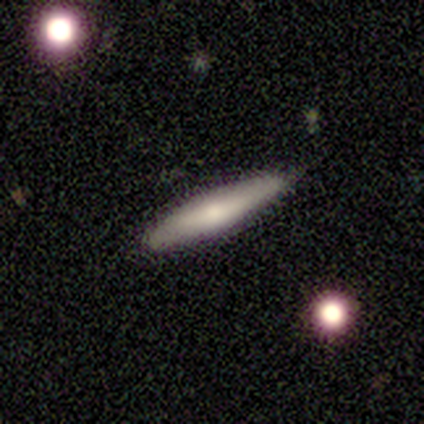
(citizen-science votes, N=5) Smooth or featured?
  - smooth: 100% *
  - featured or disk: 0%
  - star or artifact: 0%
How rounded?
  - cigar-shaped: 80% *
  - in between: 20%
  - round: 0%
Merging?
  - none: 100% *
  - minor disturbance: 0%
  - major disturbance: 0%
  - merger: 0%